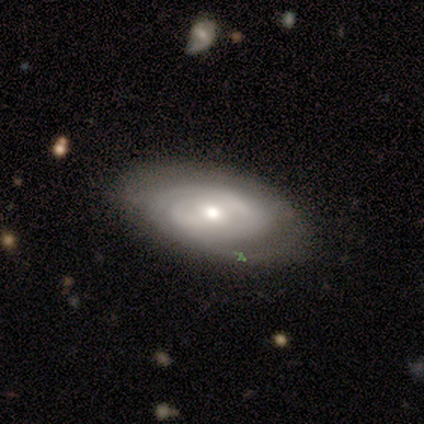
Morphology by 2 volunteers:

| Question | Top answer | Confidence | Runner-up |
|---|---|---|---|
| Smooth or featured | featured or disk | 100% | — |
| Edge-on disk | no | 100% | — |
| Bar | no | 100% | — |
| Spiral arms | yes | 50% | tied: no (50%) |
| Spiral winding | tight | 100% | — |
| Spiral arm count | can't tell | 100% | — |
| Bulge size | dominant | 50% | tied: small (50%) |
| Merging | none | 100% | — |